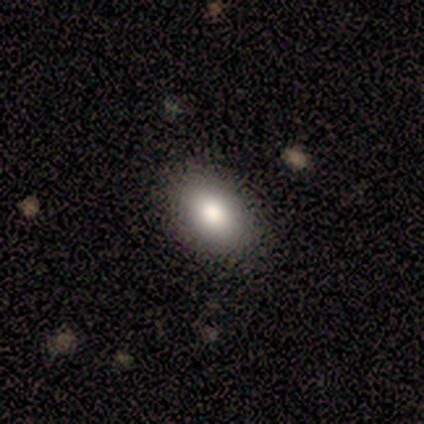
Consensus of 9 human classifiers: This is likely a smooth galaxy (67%). How rounded: clearly in between (83%). Merging: likely none (78%).